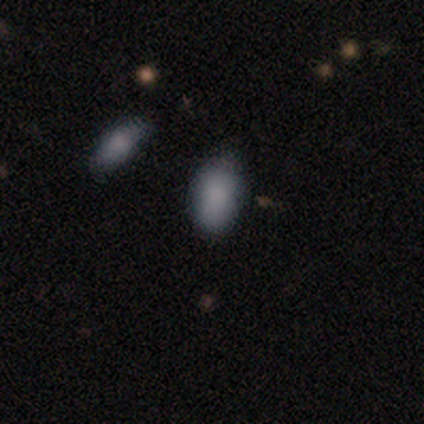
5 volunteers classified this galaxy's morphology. smooth 100%, featured or disk 0%, star or artifact 0%. Down the decision tree: how rounded — in between (100%); merging — none (60%).